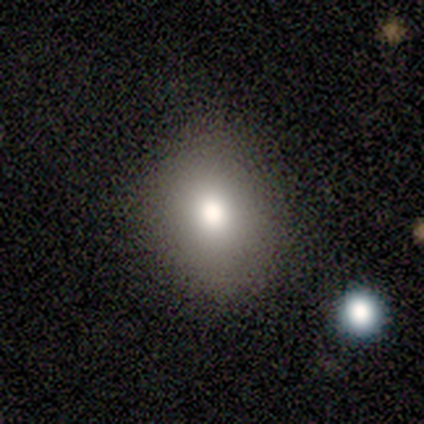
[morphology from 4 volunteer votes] This is clearly a smooth galaxy (100%). How rounded: clearly round (100%). Merging: clearly none (100%).